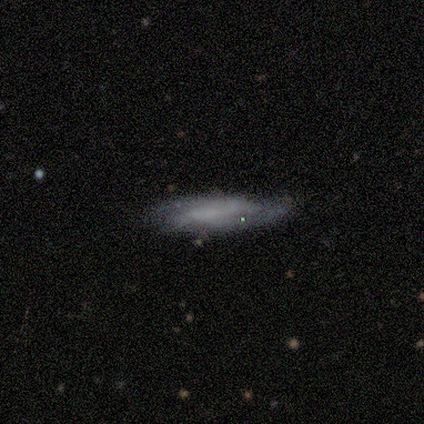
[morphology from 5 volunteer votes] type=smooth (60%); roundness=cigar-shaped (67%); merging=none (80%).